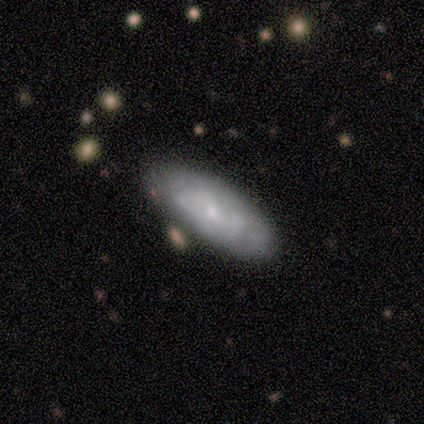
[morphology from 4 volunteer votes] smooth_or_featured: smooth (p=0.50) [tied with: featured or disk p=0.50]
how_rounded: in between (p=1.00)
merging: none (p=0.75) [alt: minor disturbance p=0.25]